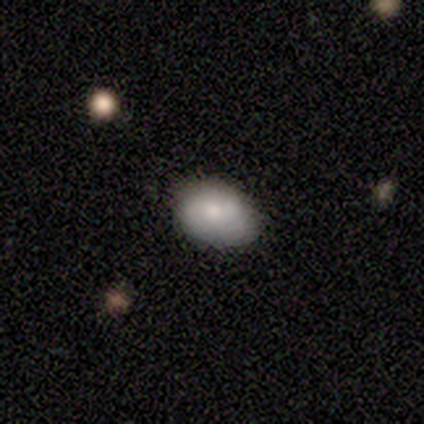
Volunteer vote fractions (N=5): Volunteers were most divided on "smooth or featured": smooth: 80%, featured or disk: 20%, star or artifact: 0%. More confident: how rounded — in between (100%); merging — none (100%).